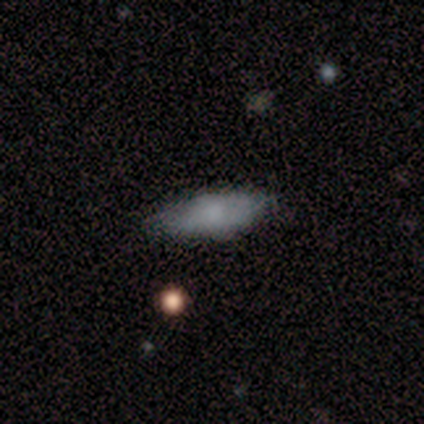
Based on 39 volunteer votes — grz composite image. It shows a smooth galaxy with no disk features (74%) that is in between round and cigar-shaped (72%). Merging: none (65%).